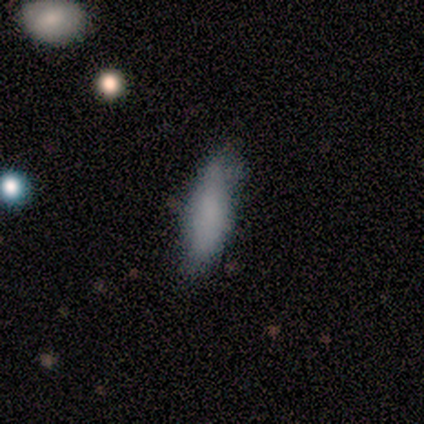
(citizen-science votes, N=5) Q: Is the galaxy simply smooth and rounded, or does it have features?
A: smooth — 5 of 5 (100%).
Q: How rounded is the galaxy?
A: in between — 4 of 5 (80%).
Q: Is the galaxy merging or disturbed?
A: none — 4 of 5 (80%).